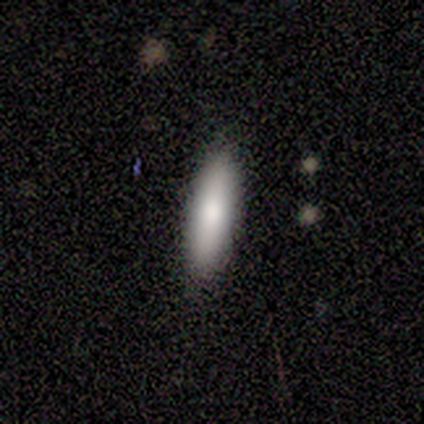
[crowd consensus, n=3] Smooth or featured: smooth — 67% (featured or disk — 33%)
How rounded: in between — 100%
Merging: none — 100%